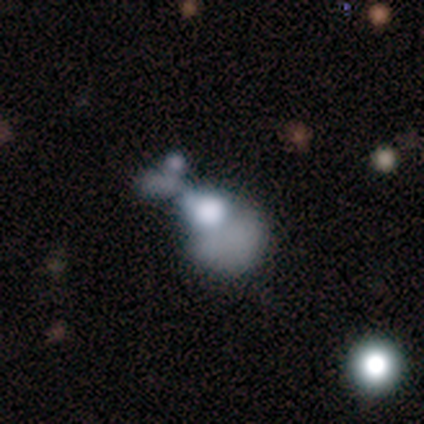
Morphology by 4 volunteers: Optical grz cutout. It shows a smooth galaxy with no disk features (75%) that is round (67%). Merging: merger (50%).